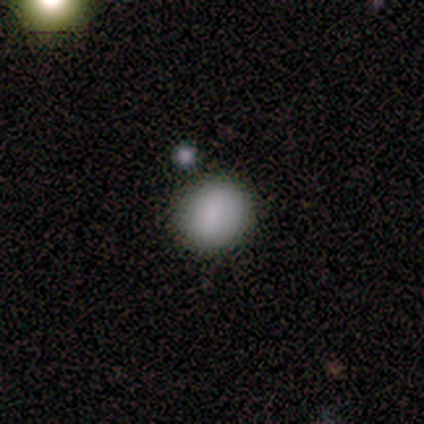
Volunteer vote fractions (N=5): Smooth or featured? 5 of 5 (100%) said smooth. How rounded? 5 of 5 (100%) said round. Merging? 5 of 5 (100%) said none.